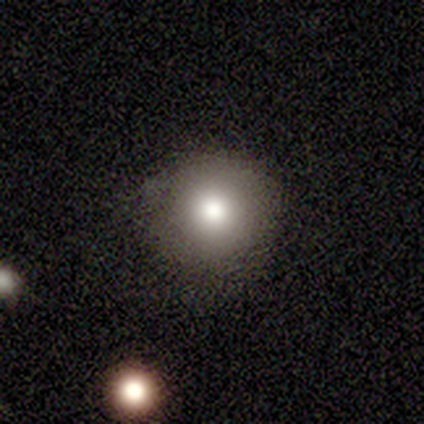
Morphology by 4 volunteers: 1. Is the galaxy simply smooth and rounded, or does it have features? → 100% smooth, 0% featured or disk, 0% star or artifact.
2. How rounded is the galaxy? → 100% round, 0% in between, 0% cigar-shaped.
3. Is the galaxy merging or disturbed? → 100% none, 0% minor disturbance, 0% major disturbance, 0% merger.